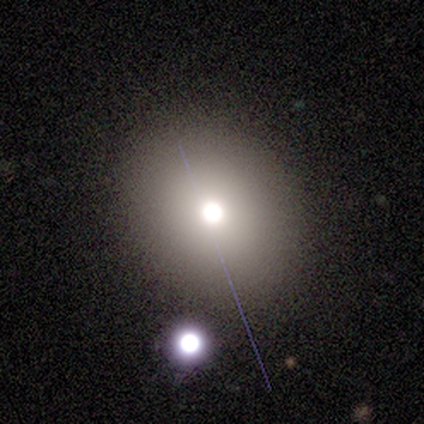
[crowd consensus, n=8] smooth-or-featured: smooth: 62% | star or artifact: 25% | featured or disk: 12%
  how-rounded: round: 60% | in between: 40% | cigar-shaped: 0%
  merging: none: 83% | minor disturbance: 17% | major disturbance: 0% | merger: 0%